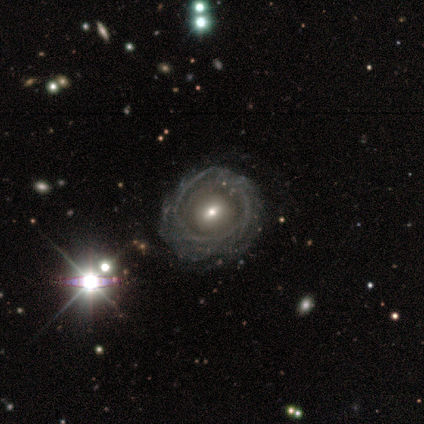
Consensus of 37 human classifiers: Morphology: type=featured or disk (84%); edge-on=no (94%); bar=no (66%); spiral arms=yes (59%); winding=tight (65%); arm count=can't tell (53%); bulge=small (55%); merging=none (68%).